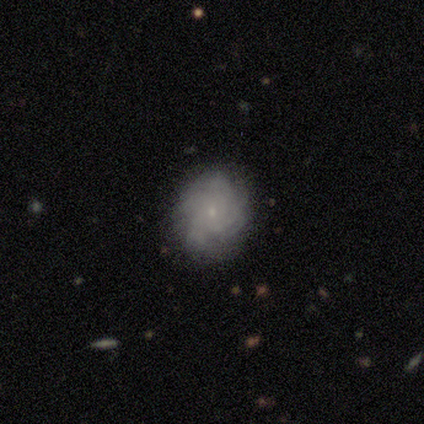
Morphology: type=featured or disk (80%); edge-on=no (100%); bar=weak (50%, tied with no); spiral arms=yes (100%); winding=tight (75%); arm count=4 (50%, tied with can't tell); bulge=small (75%); merging=none (80%).